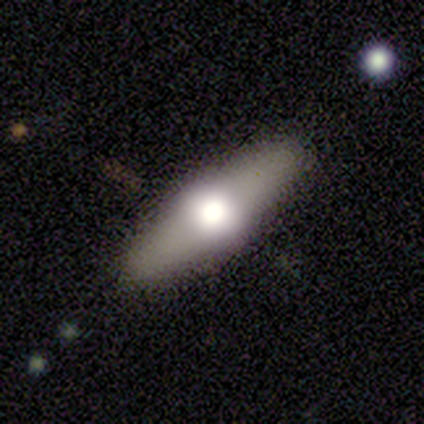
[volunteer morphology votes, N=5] Smooth or featured? 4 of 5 (80%) said featured or disk. Edge-on disk? 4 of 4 (100%) said yes. Edge-on bulge? 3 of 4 (75%) said rounded. Merging? 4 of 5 (80%) said none.